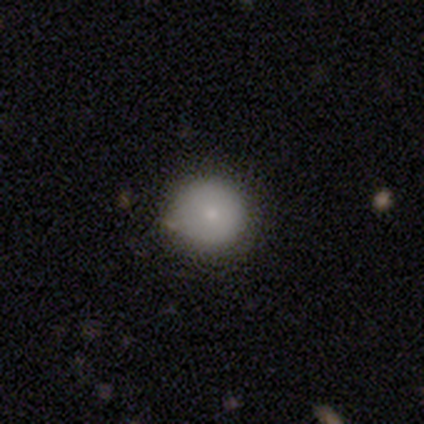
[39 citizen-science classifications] This is clearly a smooth galaxy (85%). How rounded: clearly round (100%). Merging: clearly none (83%).